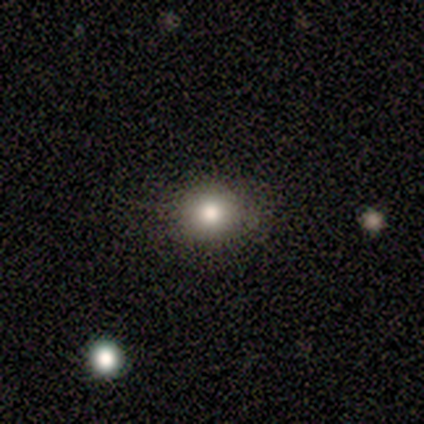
Smooth or featured? 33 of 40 (82%) said smooth. How rounded? 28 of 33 (85%) said round. Merging? 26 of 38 (68%) said none.